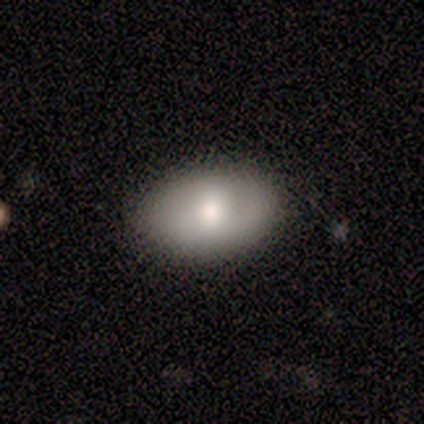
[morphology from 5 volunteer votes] smooth_or_featured: smooth (p=0.60) [alt: featured or disk p=0.20]
how_rounded: in between (p=0.67) [alt: round p=0.33]
merging: none (p=0.50) [alt: minor disturbance p=0.25]